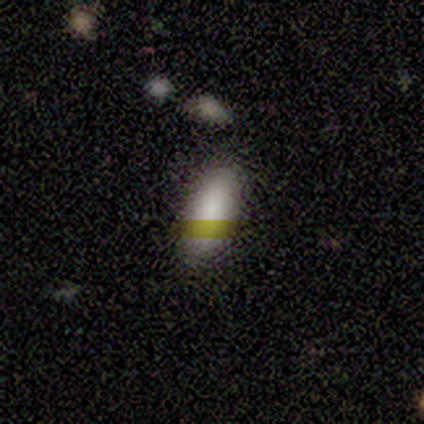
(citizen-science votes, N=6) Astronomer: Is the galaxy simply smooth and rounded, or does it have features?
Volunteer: smooth — 83%.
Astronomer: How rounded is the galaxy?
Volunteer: in between — 100%.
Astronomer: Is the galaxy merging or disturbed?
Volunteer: none — 83%.